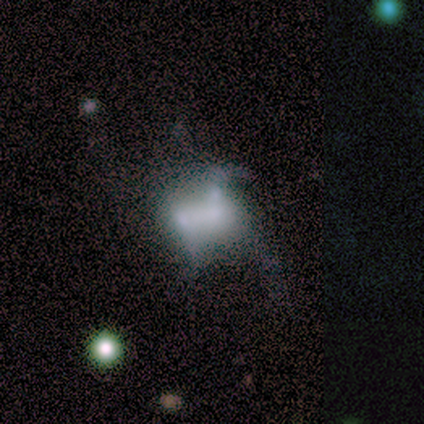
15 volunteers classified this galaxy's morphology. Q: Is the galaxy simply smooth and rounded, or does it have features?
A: featured or disk — 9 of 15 (60%).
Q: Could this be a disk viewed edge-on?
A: no — 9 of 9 (100%).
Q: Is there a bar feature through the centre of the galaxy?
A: no — 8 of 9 (89%).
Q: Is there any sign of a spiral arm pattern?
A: no — 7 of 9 (78%).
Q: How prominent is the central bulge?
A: moderate — 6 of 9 (67%).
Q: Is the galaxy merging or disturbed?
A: major disturbance — 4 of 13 (31%, tied with merger).